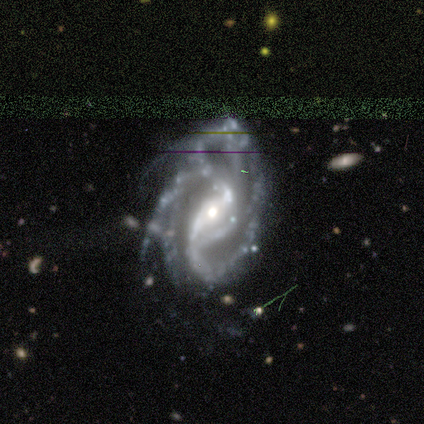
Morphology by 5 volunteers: Q: Smooth or featured?
A: featured or disk (100%)
Q: Edge-on disk?
A: no (100%)
Q: Bar?
A: strong (40%); tied with: no (40%)
Q: Spiral arms?
A: yes (100%)
Q: Spiral winding?
A: tight (60%); runner-up: loose (40%)
Q: Spiral arm count?
A: 2 (40%); tied with: 3 (40%)
Q: Bulge size?
A: small (60%); runner-up: moderate (40%)
Q: Merging?
A: major disturbance (60%); runner-up: none (40%)